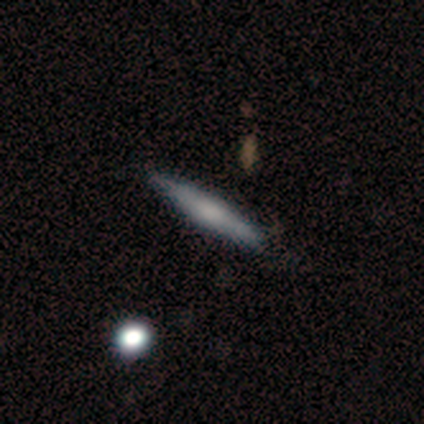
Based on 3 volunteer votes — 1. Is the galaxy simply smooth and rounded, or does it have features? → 67% featured or disk, 33% smooth, 0% star or artifact.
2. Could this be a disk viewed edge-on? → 100% yes, 0% no.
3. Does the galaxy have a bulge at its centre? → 50% none (tied), 50% rounded (tied), 0% boxy.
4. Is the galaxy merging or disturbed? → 100% none, 0% minor disturbance, 0% major disturbance, 0% merger.